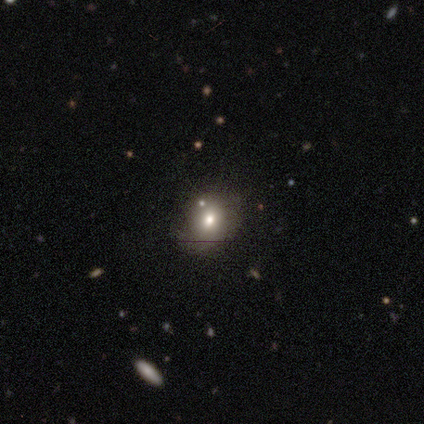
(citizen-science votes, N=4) smooth 75%, featured or disk 25%, star or artifact 0%. Down the decision tree: how rounded — round (67%); merging — none (75%).